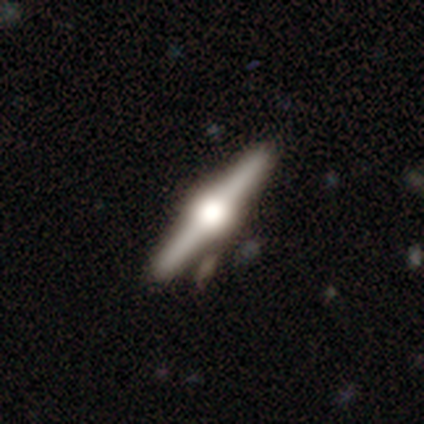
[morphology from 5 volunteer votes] A featured or disk galaxy (60%) viewed edge-on (100%) with a rounded central bulge (100%). Merging: none (100%).